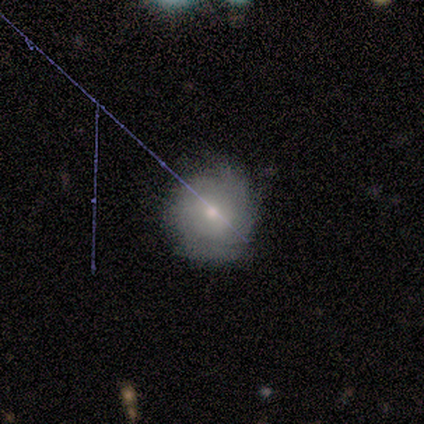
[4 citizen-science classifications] Smooth or featured? smooth (75%)
How rounded? round (100%)
Merging? none (50%, tied with minor disturbance)